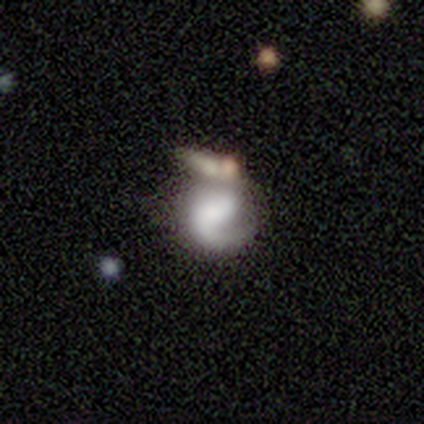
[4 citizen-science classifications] A featured or disk galaxy (100%) with a weak bar (50%), 2 (67%) medium (67%) spiral arms (75%) and a large central bulge (75%).

Vote fractions:
- Smooth or featured? featured or disk: 100% / smooth: 0% / star or artifact: 0%
- Edge-on disk? no: 100% / yes: 0%
- Bar? weak: 50% / strong: 25% / no: 25%
- Spiral arms? yes: 75% / no: 25%
- Spiral winding? medium: 67% / tight: 33% / loose: 0%
- Spiral arm count? 2: 67% / 1: 33% / 3: 0% / 4: 0% / more than 4: 0% / can't tell: 0%
- Bulge size? large: 75% / small: 25% / dominant: 0% / moderate: 0% / none: 0%
- Merging? merger: 50% / none: 25% / minor disturbance: 25% / major disturbance: 0%